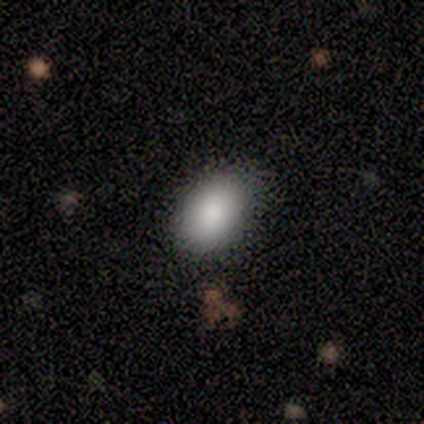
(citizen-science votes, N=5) smooth-or-featured: smooth: 100% | featured or disk: 0% | star or artifact: 0%
  how-rounded: in between: 80% | round: 20% | cigar-shaped: 0%
  merging: none: 80% | major disturbance: 20% | minor disturbance: 0% | merger: 0%